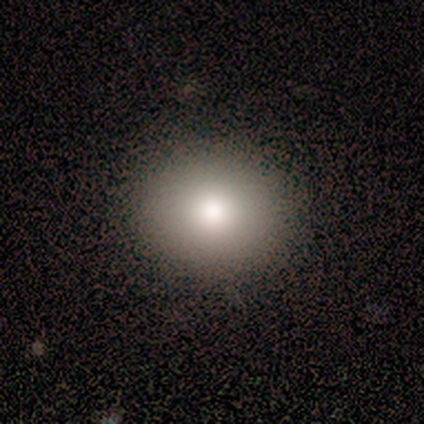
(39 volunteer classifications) smooth 79%, star or artifact 13%, featured or disk 8%. Down the decision tree: how rounded — round (71%); merging — none (85%).